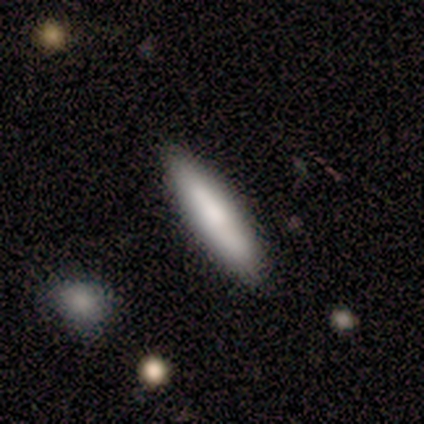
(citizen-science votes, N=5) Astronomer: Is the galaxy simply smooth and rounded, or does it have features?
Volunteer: smooth — 100%.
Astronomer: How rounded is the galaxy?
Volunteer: cigar-shaped — 80%.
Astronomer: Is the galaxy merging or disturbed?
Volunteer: none — 100%.